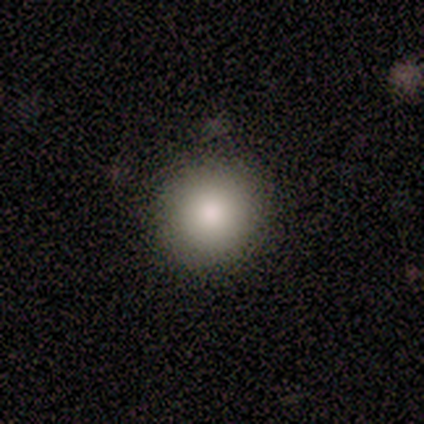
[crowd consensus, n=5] Smooth or featured? smooth (80%)
How rounded? round (100%)
Merging? none (100%)